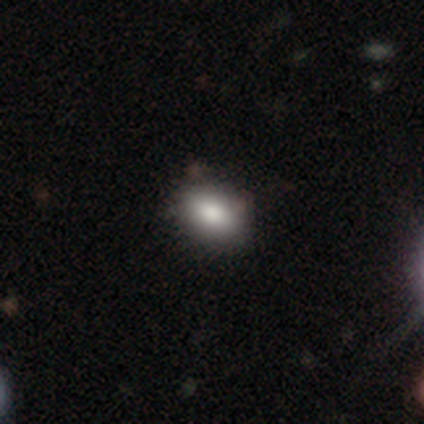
smooth-or-featured: smooth: 100% | featured or disk: 0% | star or artifact: 0%
  how-rounded: in between: 100% | round: 0% | cigar-shaped: 0%
  merging: none: 100% | minor disturbance: 0% | major disturbance: 0% | merger: 0%